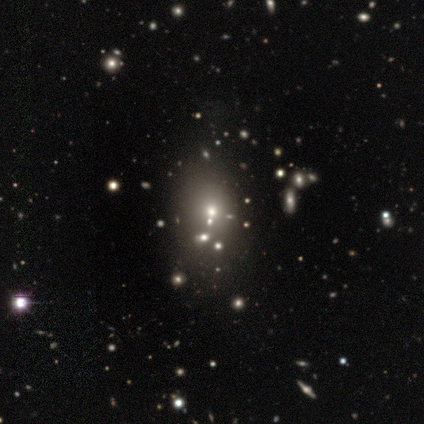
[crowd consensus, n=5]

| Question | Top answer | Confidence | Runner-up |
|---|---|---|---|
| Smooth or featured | smooth | 60% | star or artifact (40%) |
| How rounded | in between | 67% | round (33%) |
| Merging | none | 67% | merger (33%) |